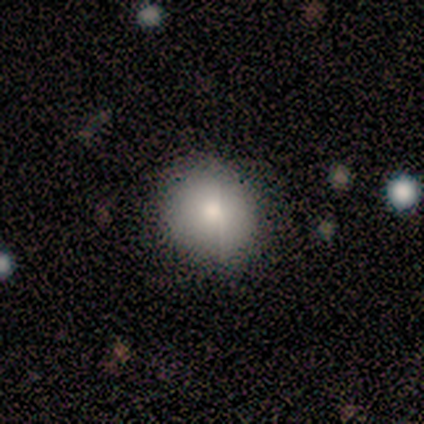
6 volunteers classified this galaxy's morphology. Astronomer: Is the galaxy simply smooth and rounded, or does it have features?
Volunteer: smooth — 100%.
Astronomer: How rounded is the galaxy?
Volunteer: round — 100%.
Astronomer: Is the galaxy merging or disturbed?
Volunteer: minor disturbance — 67%.